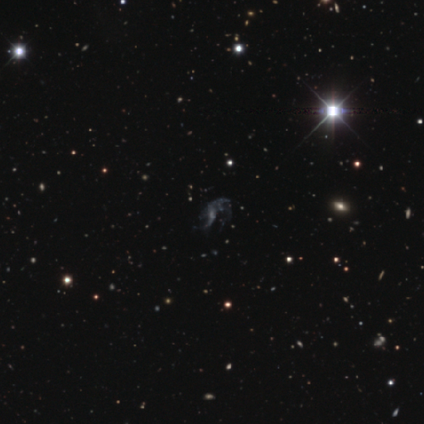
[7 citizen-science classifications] Overall: featured or disk (57%; smooth 29%). Edge-on disk: no (100%). Bar: weak (50%, tied with no). Spiral arms: yes (75%). Spiral arm count: 2 (67%; can't tell 33%). Spiral winding: medium (67%; loose 33%). Bulge size: small (50%; moderate 25%). Merging: minor disturbance (33%, tied with major disturbance).